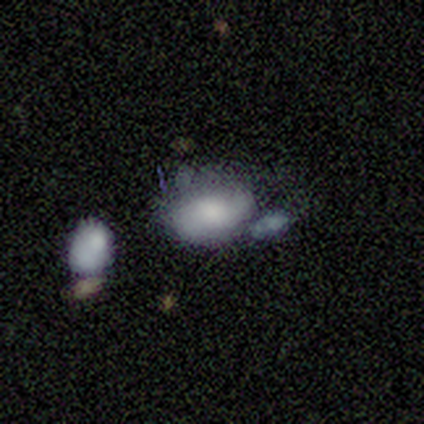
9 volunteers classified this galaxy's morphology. A smooth galaxy with no disk features (78%) that is in between round and cigar-shaped (100%). Merging: minor disturbance (44%).